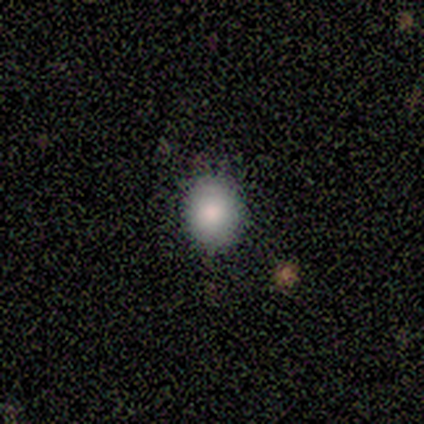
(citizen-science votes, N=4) Q: Smooth or featured?
A: smooth (75%); runner-up: star or artifact (25%)
Q: How rounded?
A: round (100%)
Q: Merging?
A: none (100%)